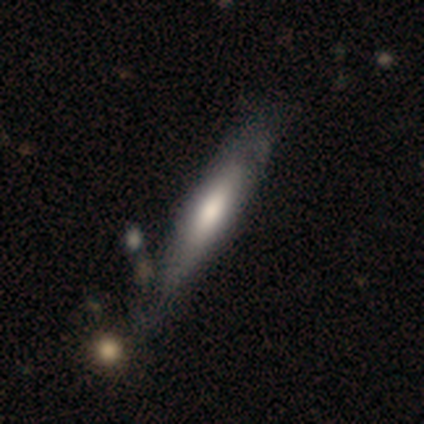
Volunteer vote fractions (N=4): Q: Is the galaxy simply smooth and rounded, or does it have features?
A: smooth — 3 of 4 (75%).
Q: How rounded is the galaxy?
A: cigar-shaped — 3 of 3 (100%).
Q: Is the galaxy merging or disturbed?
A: none — 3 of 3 (100%).